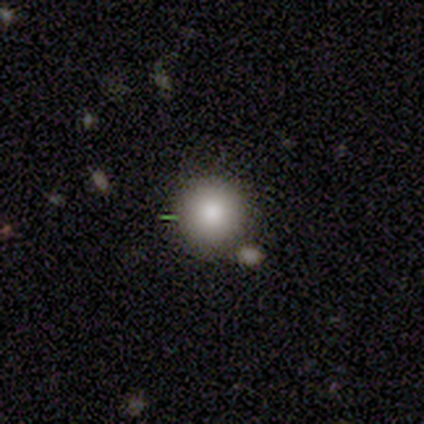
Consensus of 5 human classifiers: smooth_or_featured: smooth (p=1.00)
how_rounded: round (p=1.00)
merging: none (p=0.80) [alt: merger p=0.20]